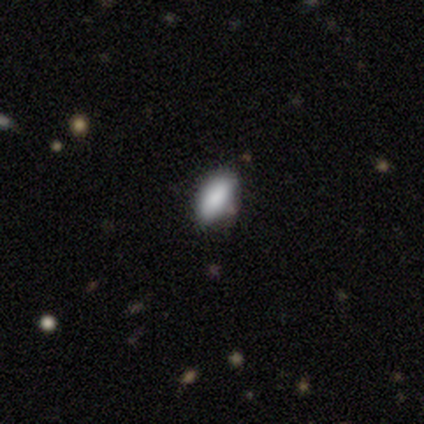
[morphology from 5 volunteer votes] Smooth or featured?
  - smooth: 80% *
  - featured or disk: 20%
  - star or artifact: 0%
How rounded?
  - in between: 100% *
  - round: 0%
  - cigar-shaped: 0%
Merging?
  - none: 80% *
  - minor disturbance: 20%
  - major disturbance: 0%
  - merger: 0%